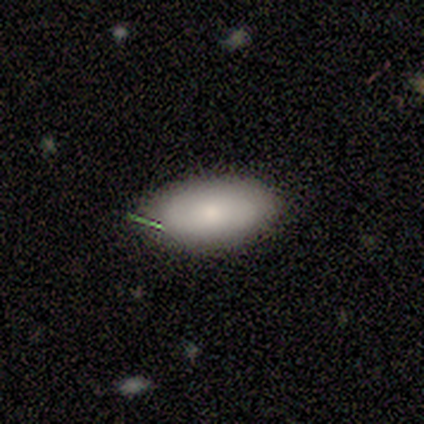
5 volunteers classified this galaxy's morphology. This appears to be a smooth galaxy with no disk features (80%) that is in between round and cigar-shaped (100%). Merging: none (60%).